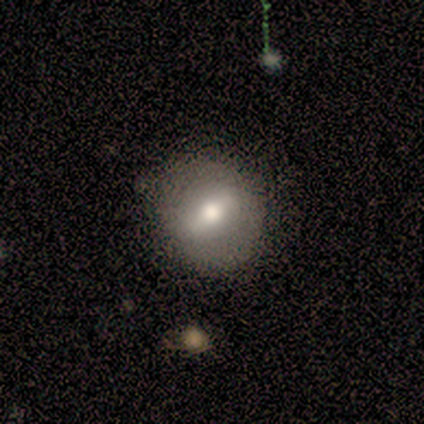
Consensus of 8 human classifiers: Smooth or featured? 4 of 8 (50%) said featured or disk. Edge-on disk? 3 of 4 (75%) said no. Bar? 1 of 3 (33%, tied with weak and no) said strong. Spiral arms? 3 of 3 (100%) said no. Bulge size? 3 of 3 (100%) said moderate. Merging? 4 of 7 (57%) said none.